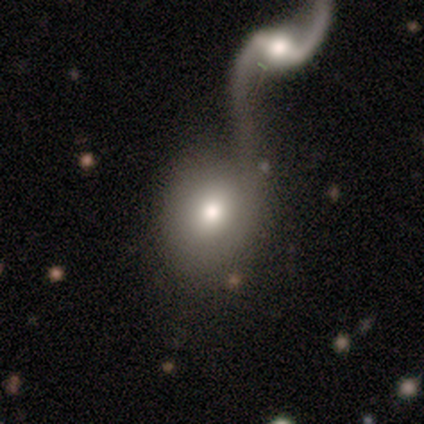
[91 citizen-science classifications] Q: Smooth or featured?
A: smooth (58%); runner-up: featured or disk (35%)
Q: How rounded?
A: round (60%); runner-up: in between (38%)
Q: Merging?
A: merger (65%); runner-up: none (14%)